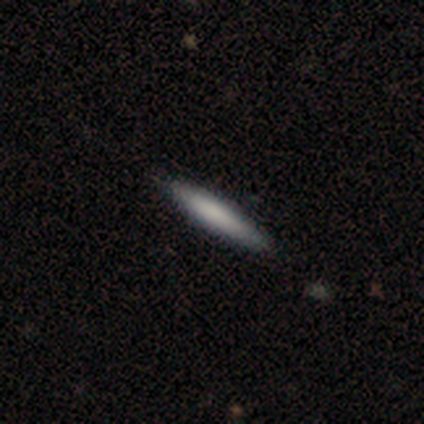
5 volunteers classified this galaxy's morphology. featured or disk 60%, smooth 40%, star or artifact 0%. Down the decision tree: edge-on disk — yes (100%); edge-on bulge — none (100%); merging — none (80%).